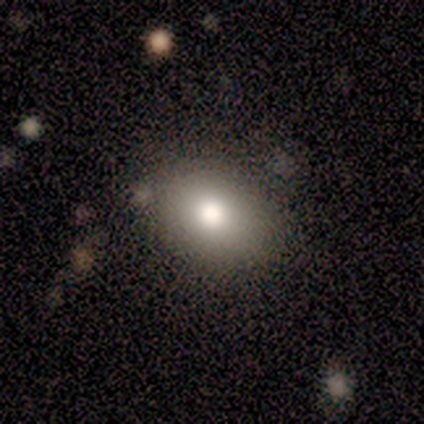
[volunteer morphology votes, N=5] Overall: smooth (100%). How rounded: in between (100%). Merging: none (60%; minor disturbance 40%).